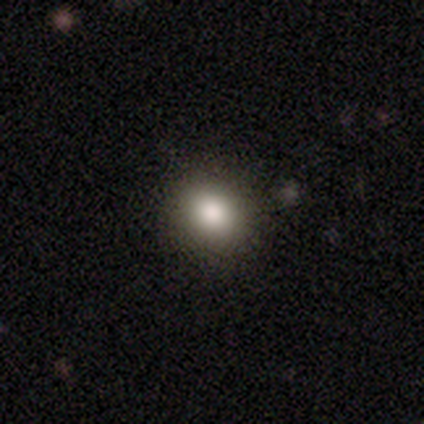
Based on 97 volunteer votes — Morphology: type=smooth (84%); roundness=round (72%); merging=none (85%).